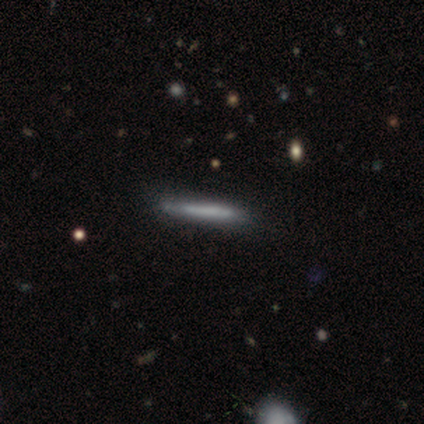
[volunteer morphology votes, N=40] Smooth or featured? 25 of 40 (62%) said smooth. How rounded? 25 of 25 (100%) said cigar-shaped. Merging? 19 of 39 (49%) said none.